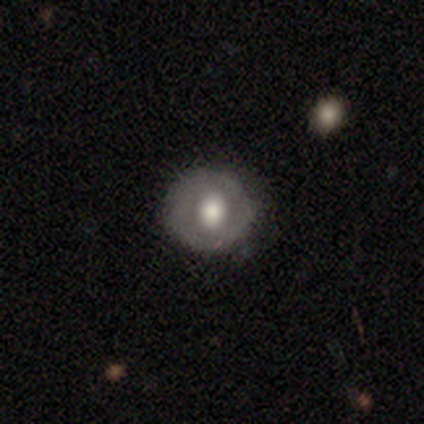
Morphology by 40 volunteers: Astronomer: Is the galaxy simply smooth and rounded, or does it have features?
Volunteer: featured or disk — 52% (runner-up: smooth, 45%).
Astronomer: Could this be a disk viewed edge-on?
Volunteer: no — 95%.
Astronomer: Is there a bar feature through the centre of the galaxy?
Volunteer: no — 65%.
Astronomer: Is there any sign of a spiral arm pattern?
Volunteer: no — 75%.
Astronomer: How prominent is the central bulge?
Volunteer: moderate — 50% (runner-up: large, 45%).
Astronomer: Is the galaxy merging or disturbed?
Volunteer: none — 64%.